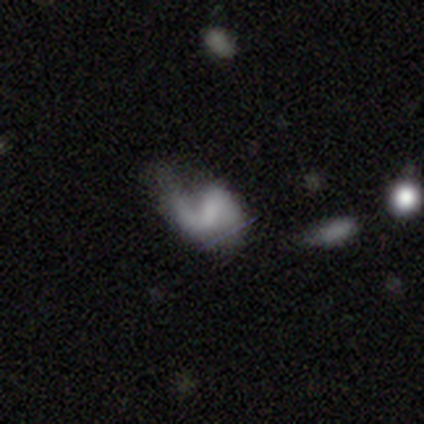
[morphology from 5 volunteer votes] smooth-or-featured: featured or disk: 100% | smooth: 0% | star or artifact: 0%
  disk-edge-on: no: 100% | yes: 0%
    bar: weak: 80% | strong: 20% | no: 0%
    has-spiral-arms: yes: 100% | no: 0%
      spiral-winding: loose: 60% | medium: 40% | tight: 0%
      spiral-arm-count: 2: 80% | 1: 20% | 3: 0% | 4: 0% | more than 4: 0% | can't tell: 0%
    bulge-size: none: 100% | dominant: 0% | large: 0% | moderate: 0% | small: 0%
  merging: none: 40% (tied) | minor disturbance: 40% (tied) | major disturbance: 20% | merger: 0%